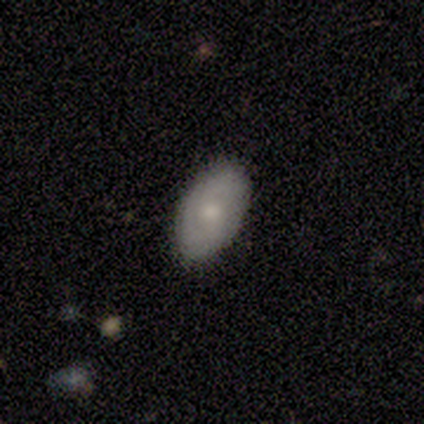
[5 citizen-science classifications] Smooth or featured? smooth (60%)
How rounded? in between (100%)
Merging? none (60%)